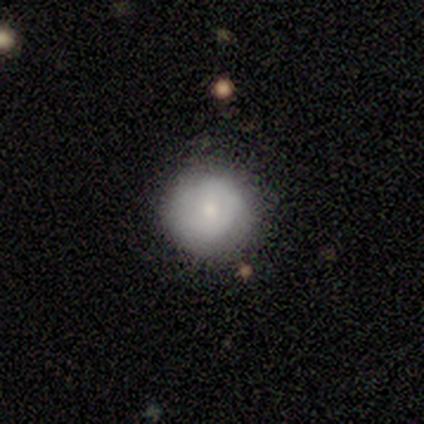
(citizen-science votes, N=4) Smooth or featured? star or artifact (50%)